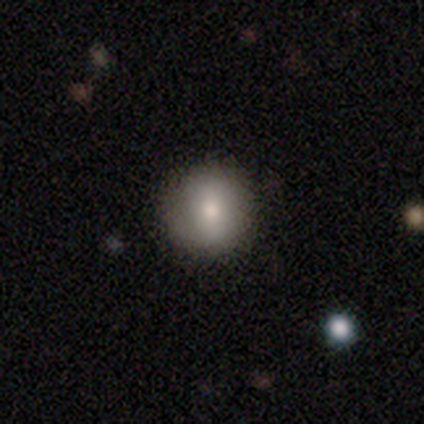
Smooth or featured: smooth — 60% (featured or disk — 40%)
How rounded: in between — 67% (round — 33%)
Merging: none — 80% (minor disturbance — 20%)